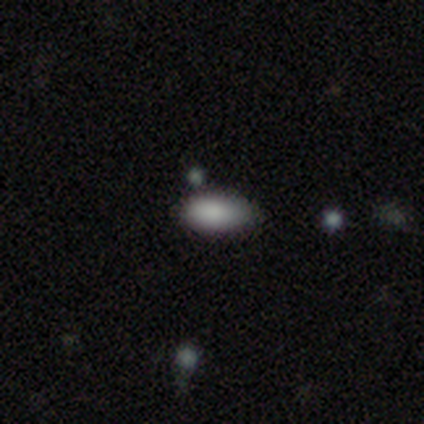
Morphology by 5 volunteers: Volunteers were most divided on "smooth or featured" (2-way tie): smooth: 40%, featured or disk: 40%, star or artifact: 20%. More confident: how rounded — in between (100%); merging — none (100%).